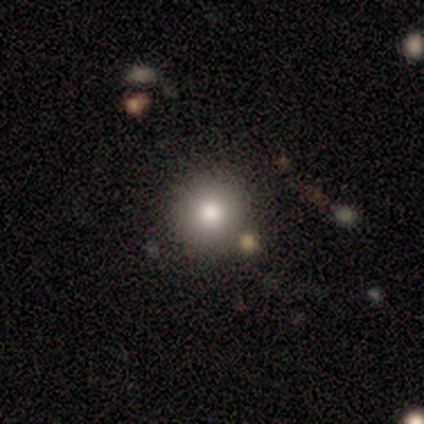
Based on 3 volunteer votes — Morphology: type=smooth (100%); roundness=round (100%); merging=none (100%).